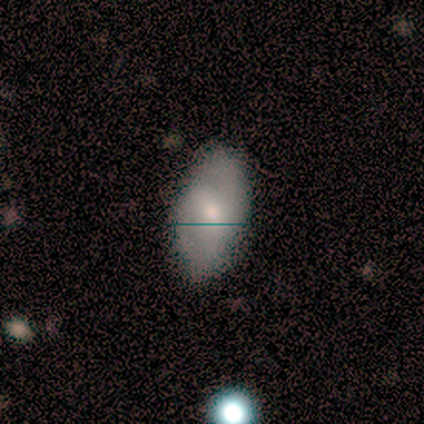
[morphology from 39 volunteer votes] smooth_or_featured: smooth (p=0.67) [alt: featured or disk p=0.26]
how_rounded: in between (p=0.92) [alt: cigar-shaped p=0.08]
merging: none (p=0.67) [alt: minor disturbance p=0.19]